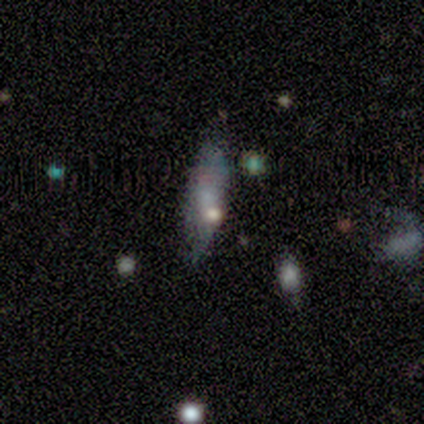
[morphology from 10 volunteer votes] Overall: smooth (70%). How rounded: cigar-shaped (71%). Merging: none (56%; minor disturbance 44%).